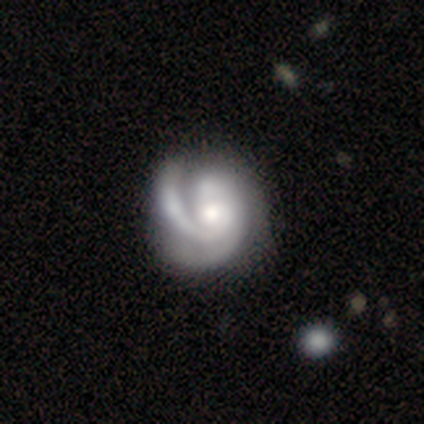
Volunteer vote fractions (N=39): This is clearly a featured or disk galaxy (97%). It is clearly not viewed edge-on (100%). Bar: likely no (79%). Spiral arm pattern: clearly yes (100%). Spiral arm count: marginally 2 (39%). Spiral winding: possibly tight (47%). Central bulge: possibly moderate (53%). Merging: marginally none (44%).